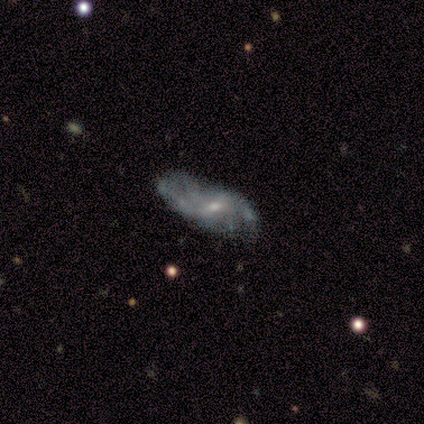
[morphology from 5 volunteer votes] Smooth or featured? featured or disk (40%, tied with star or artifact)
Edge-on disk? no (100%)
Bar? weak (50%, tied with no)
Spiral arms? yes (100%)
Spiral winding? medium (50%, tied with loose)
Spiral arm count? 2 (50%, tied with 4)
Bulge size? small (100%)
Merging? none (33%, tied with minor disturbance and major disturbance)